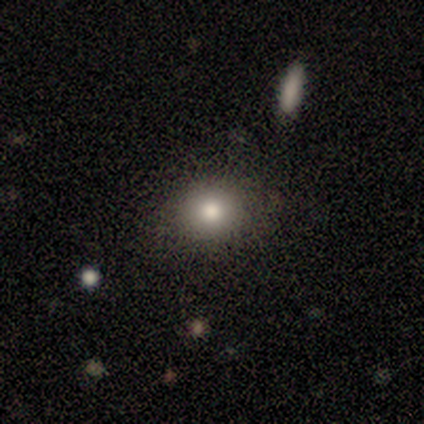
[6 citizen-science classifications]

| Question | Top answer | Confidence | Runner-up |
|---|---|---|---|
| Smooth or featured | smooth | 100% | — |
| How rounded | round | 83% | in between (17%) |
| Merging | none | 100% | — |